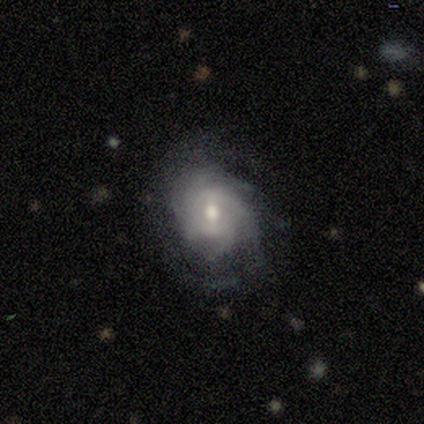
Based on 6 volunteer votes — Volunteers were most divided on "bar": no: 50%, strong: 33%, weak: 17%. More confident: smooth or featured — featured or disk (100%); edge-on disk — no (100%); spiral arms — yes (83%); bulge size — moderate (83%); spiral winding — tight (80%); spiral arm count — can't tell (60%); merging — none (50%).